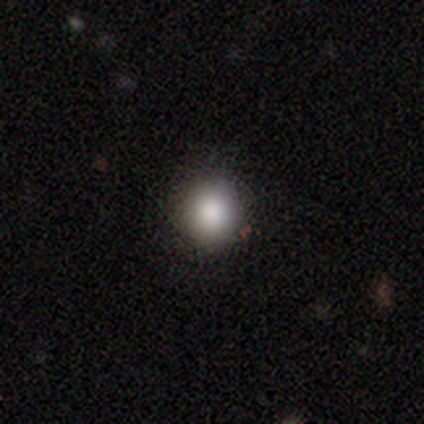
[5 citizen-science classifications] smooth-or-featured: smooth: 100% | featured or disk: 0% | star or artifact: 0%
  how-rounded: round: 80% | in between: 20% | cigar-shaped: 0%
  merging: none: 80% | minor disturbance: 20% | major disturbance: 0% | merger: 0%